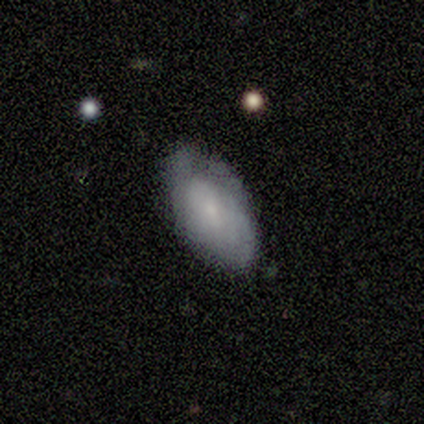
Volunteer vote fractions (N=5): This appears to be a smooth galaxy with no disk features (80%) that is in between round and cigar-shaped (100%). Merging: none (100%).